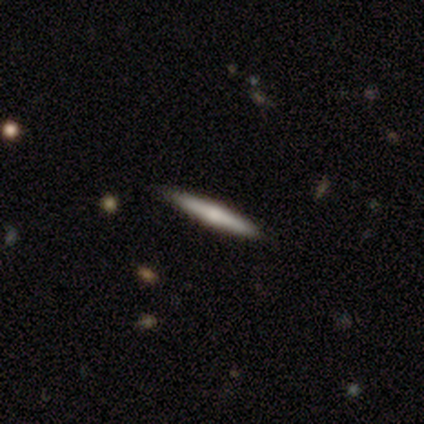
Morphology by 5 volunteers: Smooth or featured: featured or disk — 60% (smooth — 40%)
Edge-on disk: yes — 67% (no — 33%)
Edge-on bulge: rounded — 100%
Merging: none — 80% (minor disturbance — 20%)